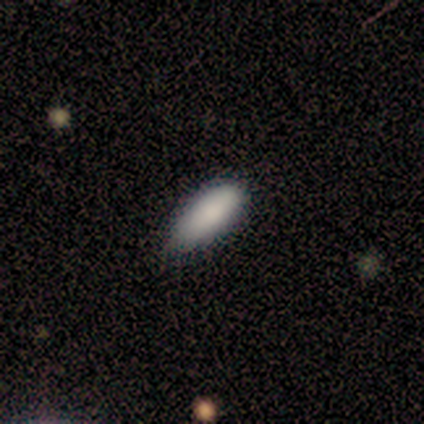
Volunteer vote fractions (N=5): This is clearly a smooth galaxy (100%). How rounded: clearly in between (80%). Merging: likely minor disturbance (60%).